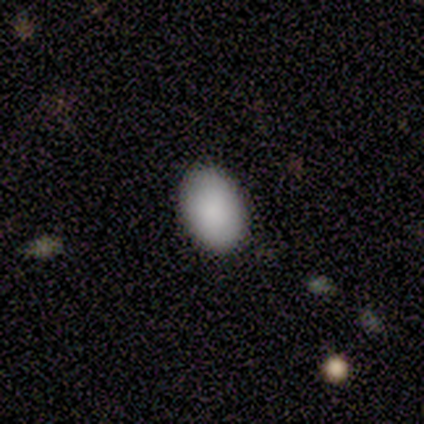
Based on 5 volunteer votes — Volunteers were most divided on "smooth or featured": smooth: 80%, featured or disk: 20%, star or artifact: 0%. More confident: how rounded — in between (100%); merging — none (100%).